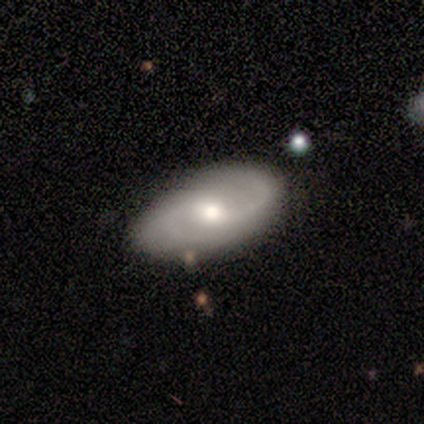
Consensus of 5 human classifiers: This appears to be a featured or disk galaxy (100%) with a weak bar (60%), 2 (100%) tight (50%) spiral arms (80%) and a moderate central bulge (60%). Merging: none (60%).